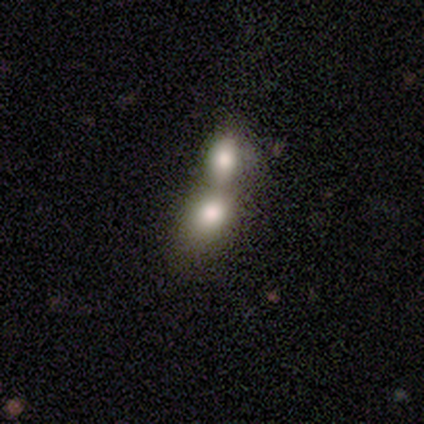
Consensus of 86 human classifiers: Smooth or featured?
  - smooth: 67% *
  - featured or disk: 20%
  - star or artifact: 13%
How rounded?
  - in between: 67% *
  - round: 29%
  - cigar-shaped: 3%
Merging?
  - merger: 85% *
  - none: 7%
  - minor disturbance: 5%
  - major disturbance: 3%